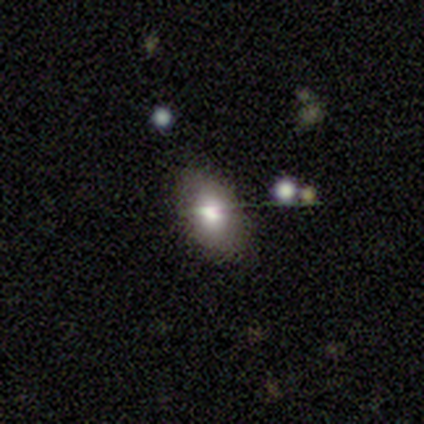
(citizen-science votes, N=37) Volunteers were most divided on "merging": none: 79%, minor disturbance: 18%, major disturbance: 3%, merger: 0%. More confident: how rounded — in between (96%); smooth or featured — smooth (76%).